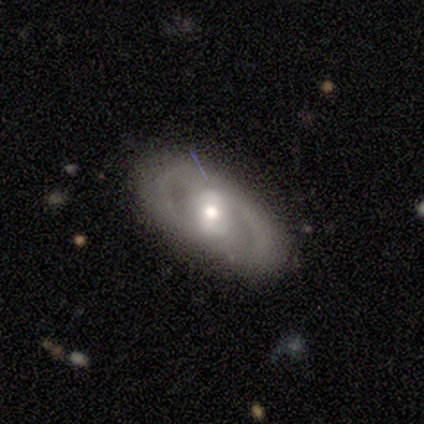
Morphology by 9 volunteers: Smooth or featured? featured or disk (56%)
Edge-on disk? no (100%)
Bar? strong (40%, tied with no)
Spiral arms? yes (60%)
Spiral winding? medium (67%)
Spiral arm count? 2 (67%)
Bulge size? moderate (60%)
Merging? none (88%)